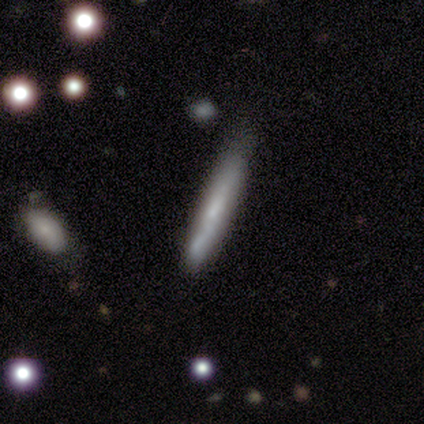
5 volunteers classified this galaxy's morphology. Volunteers were most divided on "smooth or featured": smooth: 60%, featured or disk: 40%, star or artifact: 0%. More confident: how rounded — cigar-shaped (100%); merging — none (80%).